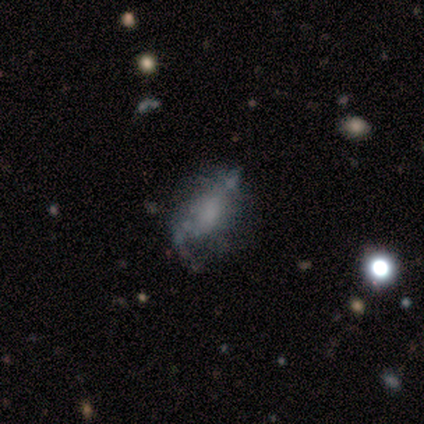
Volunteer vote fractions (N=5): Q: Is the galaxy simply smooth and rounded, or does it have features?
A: smooth — 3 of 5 (60%).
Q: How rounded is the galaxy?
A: in between — 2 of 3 (67%).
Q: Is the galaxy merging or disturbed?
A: minor disturbance — 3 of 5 (60%).